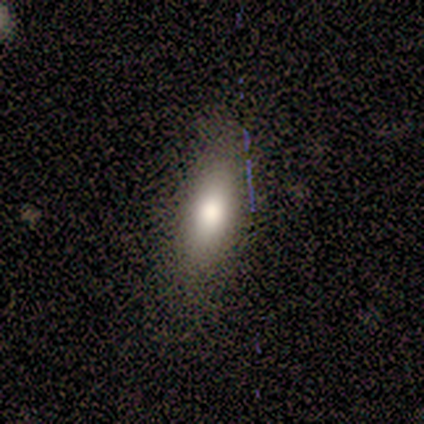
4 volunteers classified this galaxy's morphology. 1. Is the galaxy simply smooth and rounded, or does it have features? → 75% smooth, 25% star or artifact, 0% featured or disk.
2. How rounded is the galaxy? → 67% in between, 33% cigar-shaped, 0% round.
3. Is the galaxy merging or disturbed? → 67% none, 33% minor disturbance, 0% major disturbance, 0% merger.